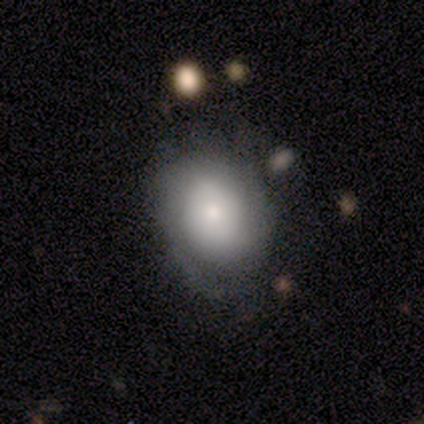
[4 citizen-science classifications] This appears to be a smooth galaxy with no disk features (50%, tied with featured or disk) that is round (50%, tied with in between). Merging: none (50%, tied with major disturbance).